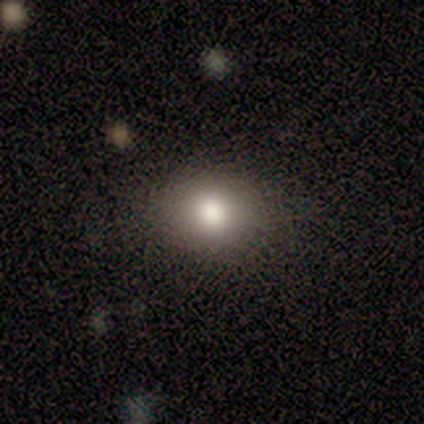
Smooth or featured: smooth — 80% (star or artifact — 20%)
How rounded: round — 50% (tied with in between — 50%)
Merging: none — 50% (tied with minor disturbance — 50%)